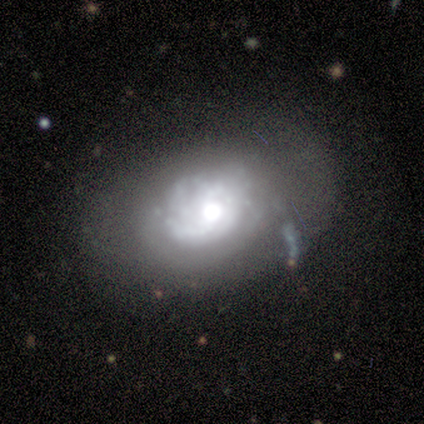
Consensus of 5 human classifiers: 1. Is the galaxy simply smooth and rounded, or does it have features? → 80% featured or disk, 20% smooth, 0% star or artifact.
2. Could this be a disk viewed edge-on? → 100% no, 0% yes.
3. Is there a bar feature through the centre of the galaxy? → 100% no, 0% strong, 0% weak.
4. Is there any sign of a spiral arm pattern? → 50% yes (tied), 50% no (tied).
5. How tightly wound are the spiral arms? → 100% tight, 0% medium, 0% loose.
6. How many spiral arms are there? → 50% 1 (tied), 50% can't tell (tied), 0% 2, 0% 3, 0% 4, 0% more than 4.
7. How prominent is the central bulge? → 50% moderate, 25% large, 25% small, 0% dominant, 0% none.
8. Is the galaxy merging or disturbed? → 60% minor disturbance, 40% none, 0% major disturbance, 0% merger.